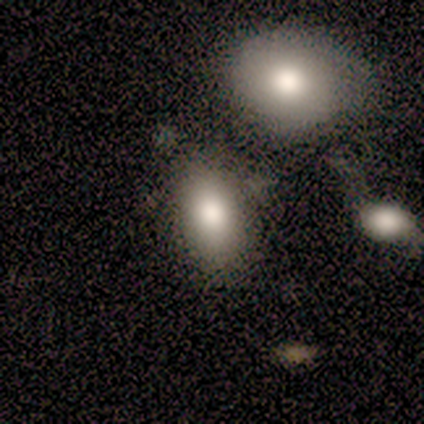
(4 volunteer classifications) smooth 100%, featured or disk 0%, star or artifact 0%. Down the decision tree: how rounded — round (50%, tied with in between); merging — none (50%).